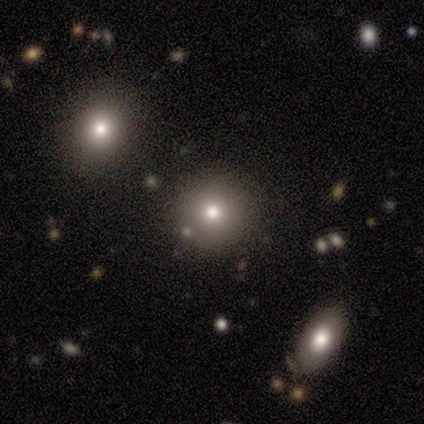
smooth_or_featured: smooth (p=0.66) [alt: star or artifact p=0.29]
how_rounded: round (p=0.88) [alt: in between p=0.12]
merging: none (p=0.85) [alt: minor disturbance p=0.07]